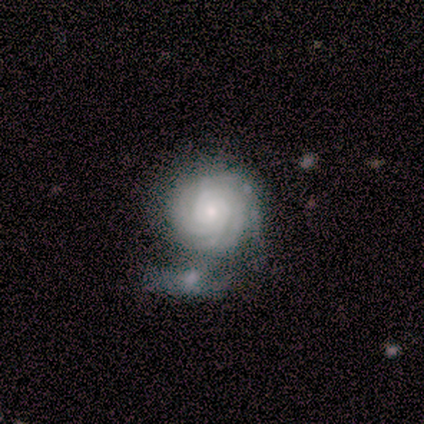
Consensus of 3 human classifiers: Overall: featured or disk (100%). Edge-on disk: no (100%). Bar: no (100%). Spiral arms: yes (100%). Spiral arm count: 3 (33%, tied with more than 4 and can't tell). Spiral winding: tight (100%). Bulge size: large (33%, tied with moderate and small). Merging: merger (67%; none 33%).